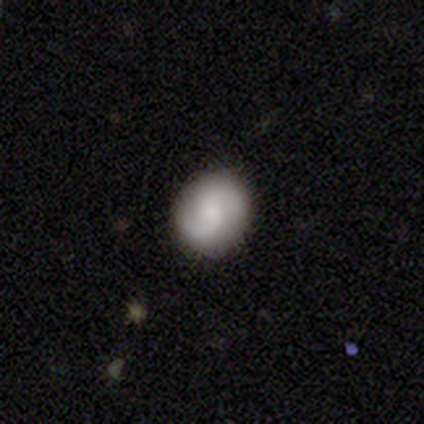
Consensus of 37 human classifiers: Morphology: type=featured or disk (49%); edge-on=no (100%); bar=no (67%); spiral arms=yes (89%); winding=medium (62%); arm count=2 (94%); bulge=moderate (39%); merging=none (86%).